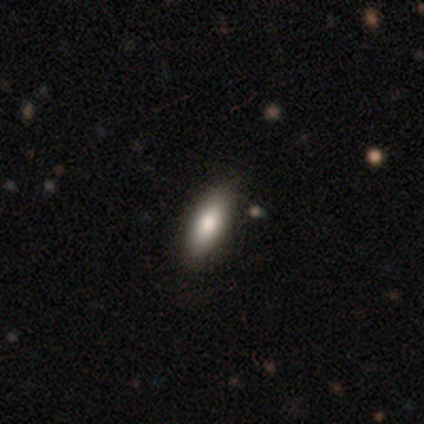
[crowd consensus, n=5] Smooth or featured?
  - smooth: 60% *
  - featured or disk: 40%
  - star or artifact: 0%
How rounded?
  - cigar-shaped: 67% *
  - in between: 33%
  - round: 0%
Merging?
  - none: 100% *
  - minor disturbance: 0%
  - major disturbance: 0%
  - merger: 0%